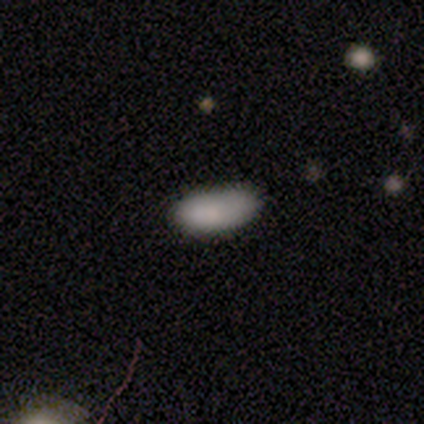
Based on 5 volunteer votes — smooth-or-featured: smooth: 80% | featured or disk: 20% | star or artifact: 0%
  how-rounded: in between: 100% | round: 0% | cigar-shaped: 0%
  merging: minor disturbance: 40% | none: 20% | major disturbance: 20% | merger: 20%